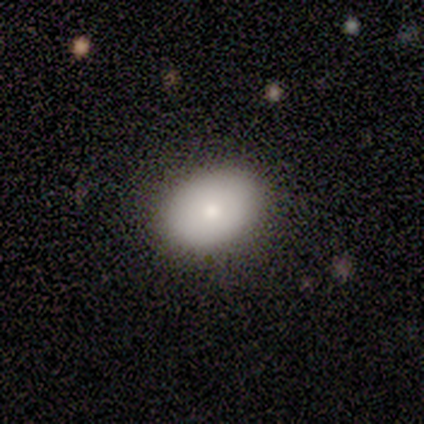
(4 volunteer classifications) Smooth or featured? smooth (75%)
How rounded? in between (100%)
Merging? none (75%)